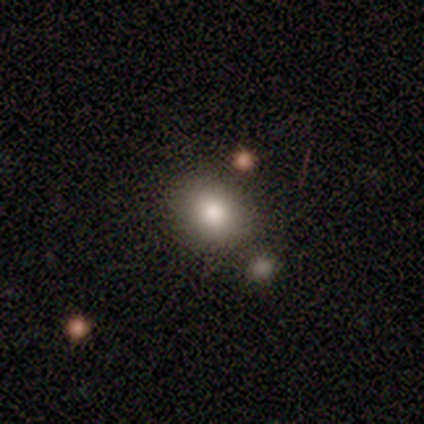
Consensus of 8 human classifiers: Smooth or featured: smooth — 75% (featured or disk — 25%)
How rounded: in between — 67% (round — 33%)
Merging: none — 50% (merger — 38%)